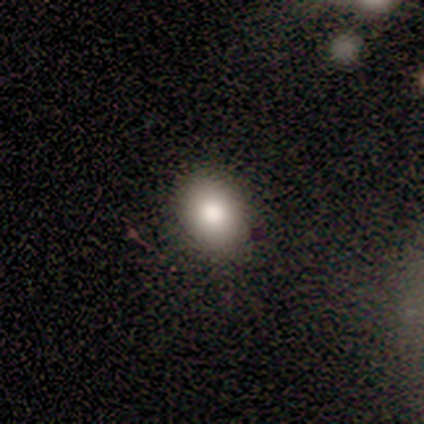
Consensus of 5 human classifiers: A smooth galaxy with no disk features (100%) that is in between round and cigar-shaped (60%). Merging: none (80%).